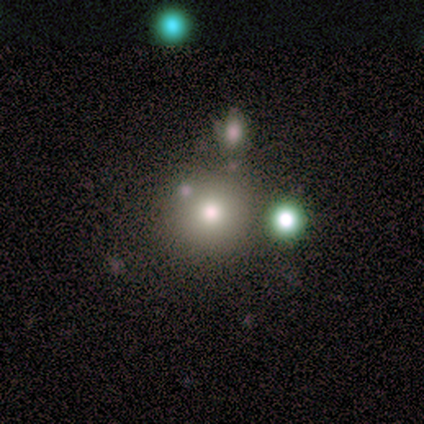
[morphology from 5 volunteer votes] Overall: smooth (60%; featured or disk 20%). How rounded: round (100%). Merging: none (75%).